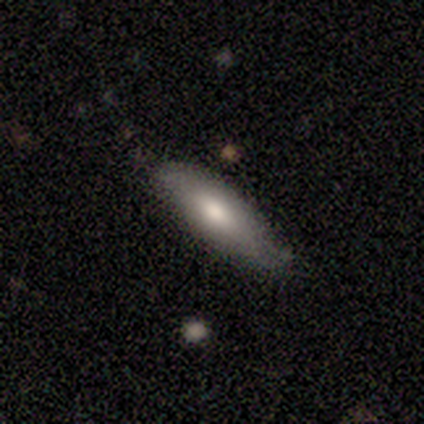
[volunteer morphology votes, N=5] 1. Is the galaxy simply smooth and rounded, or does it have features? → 40% smooth (tied), 40% featured or disk (tied), 20% star or artifact.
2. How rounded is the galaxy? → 100% in between, 0% round, 0% cigar-shaped.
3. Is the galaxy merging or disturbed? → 100% none, 0% minor disturbance, 0% major disturbance, 0% merger.